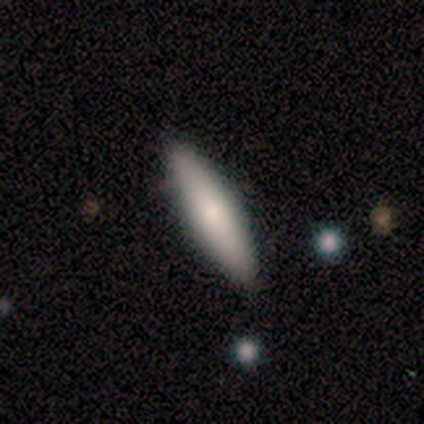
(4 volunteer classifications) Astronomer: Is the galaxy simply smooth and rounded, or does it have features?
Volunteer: smooth — 100%.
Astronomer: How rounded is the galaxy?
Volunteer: in between — 75%.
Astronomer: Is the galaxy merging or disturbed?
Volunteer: none — 75%.